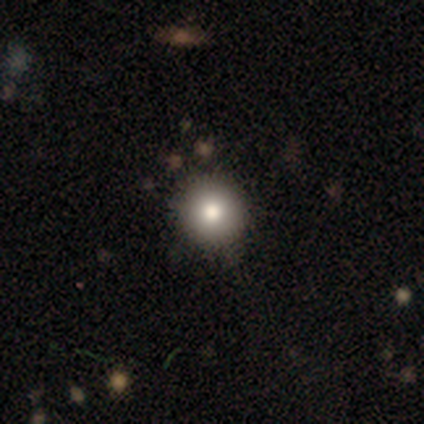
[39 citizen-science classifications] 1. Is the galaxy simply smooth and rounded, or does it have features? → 85% smooth, 10% featured or disk, 5% star or artifact.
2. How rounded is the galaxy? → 97% round, 3% in between, 0% cigar-shaped.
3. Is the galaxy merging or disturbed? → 59% none, 3% minor disturbance, 3% merger, 0% major disturbance.